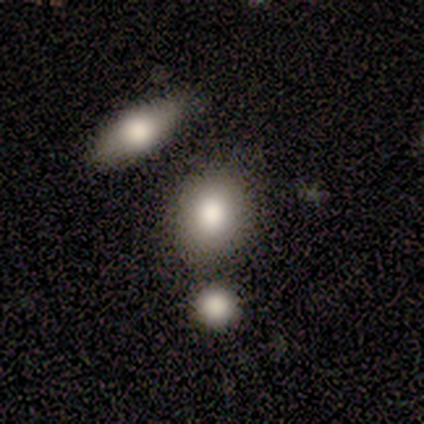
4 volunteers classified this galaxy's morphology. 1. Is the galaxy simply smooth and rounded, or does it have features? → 75% smooth, 25% star or artifact, 0% featured or disk.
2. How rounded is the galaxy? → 67% round, 33% in between, 0% cigar-shaped.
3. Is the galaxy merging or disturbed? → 100% none, 0% minor disturbance, 0% major disturbance, 0% merger.